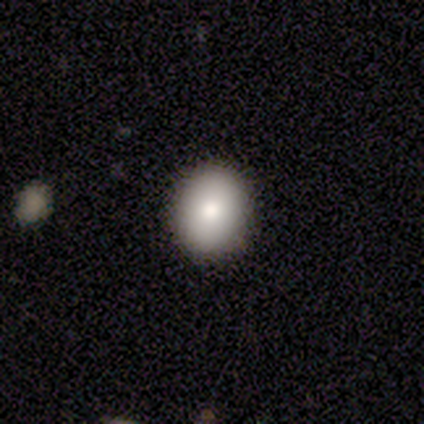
smooth_or_featured: smooth (p=0.75) [alt: featured or disk p=0.20]
how_rounded: round (p=0.50) [tied with: in between p=0.50]
merging: none (p=0.95) [alt: minor disturbance p=0.03]